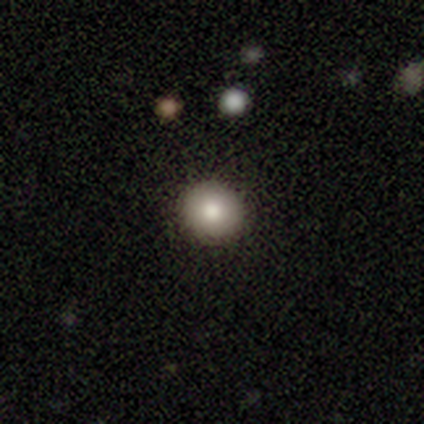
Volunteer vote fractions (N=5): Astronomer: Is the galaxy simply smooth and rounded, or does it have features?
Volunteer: smooth — 80%.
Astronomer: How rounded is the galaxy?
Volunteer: round — 100%.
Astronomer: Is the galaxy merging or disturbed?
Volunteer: none — 80%.